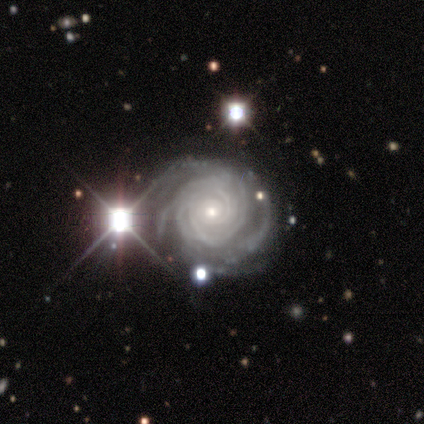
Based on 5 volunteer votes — Overall: featured or disk (80%). Edge-on disk: no (100%). Bar: no (100%). Spiral arms: yes (100%). Spiral arm count: can't tell (50%; 3 25%). Spiral winding: tight (100%). Bulge size: small (100%). Merging: none (75%).